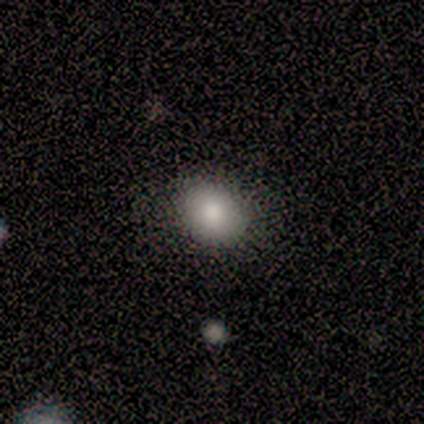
Smooth or featured?
  - smooth: 80% *
  - featured or disk: 20%
  - star or artifact: 0%
How rounded?
  - round: 50% * (tied)
  - in between: 50% * (tied)
  - cigar-shaped: 0%
Merging?
  - none: 80% *
  - major disturbance: 20%
  - minor disturbance: 0%
  - merger: 0%